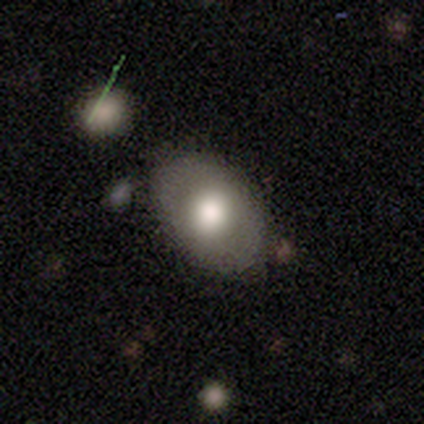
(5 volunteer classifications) This is clearly a smooth galaxy (80%). How rounded: likely in between (75%). Merging: clearly none (80%).